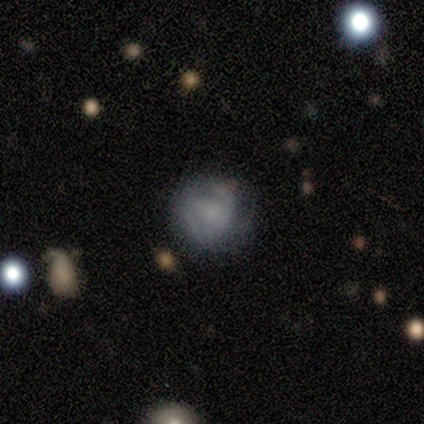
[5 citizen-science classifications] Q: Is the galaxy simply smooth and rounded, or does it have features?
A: smooth — 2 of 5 (40%, tied with featured or disk).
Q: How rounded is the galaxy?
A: round — 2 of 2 (100%).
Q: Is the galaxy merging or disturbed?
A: none — 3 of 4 (75%).